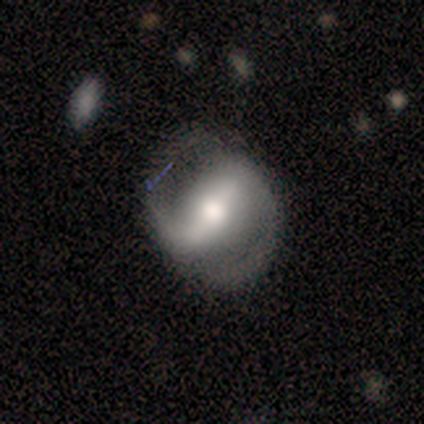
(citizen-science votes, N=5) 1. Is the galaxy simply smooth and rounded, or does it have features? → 100% featured or disk, 0% smooth, 0% star or artifact.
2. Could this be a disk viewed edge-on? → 80% no, 20% yes.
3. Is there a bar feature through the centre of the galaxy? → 50% strong (tied), 50% weak (tied), 0% no.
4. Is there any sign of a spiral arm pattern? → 100% yes, 0% no.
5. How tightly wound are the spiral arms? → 50% medium (tied), 50% loose (tied), 0% tight.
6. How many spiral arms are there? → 100% 2, 0% 1, 0% 3, 0% 4, 0% more than 4, 0% can't tell.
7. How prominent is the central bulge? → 75% moderate, 25% small, 0% dominant, 0% large, 0% none.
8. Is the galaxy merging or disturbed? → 60% none, 20% minor disturbance, 20% major disturbance, 0% merger.